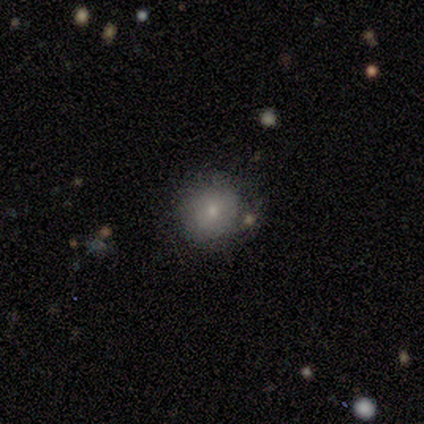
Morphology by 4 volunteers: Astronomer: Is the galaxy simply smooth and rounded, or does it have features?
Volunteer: smooth — 75%.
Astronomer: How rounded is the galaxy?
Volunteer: round — 67%.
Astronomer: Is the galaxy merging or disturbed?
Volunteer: none — 75%.